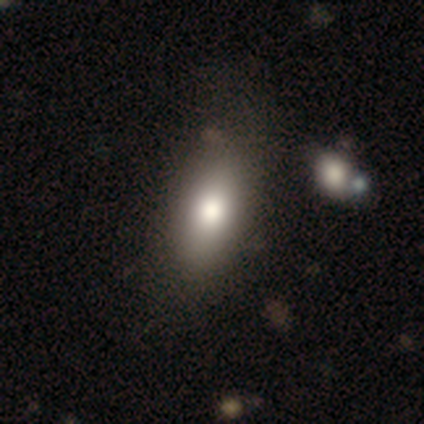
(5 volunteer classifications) This appears to be a smooth galaxy with no disk features (60%) that is in between round and cigar-shaped (100%). Merging: none (60%).